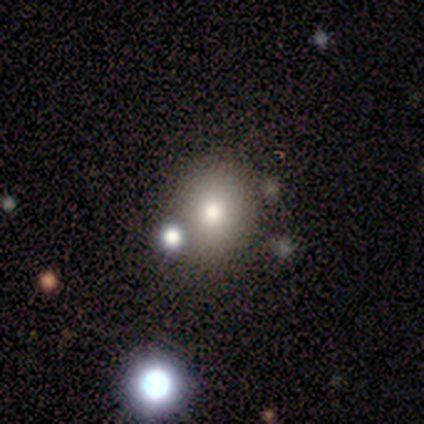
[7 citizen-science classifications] smooth_or_featured: smooth (p=0.86) [alt: star or artifact p=0.14]
how_rounded: round (p=0.50) [tied with: in between p=0.50]
merging: none (p=1.00)